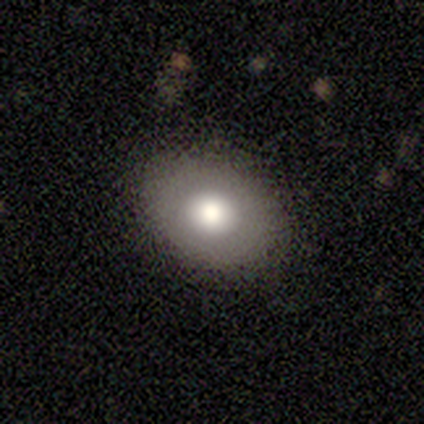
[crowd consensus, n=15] Morphology: type=smooth (80%); roundness=in between (67%); merging=none (86%).